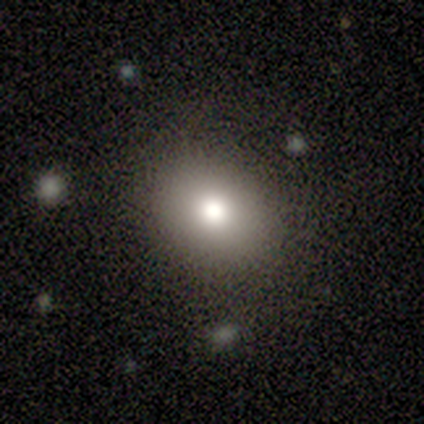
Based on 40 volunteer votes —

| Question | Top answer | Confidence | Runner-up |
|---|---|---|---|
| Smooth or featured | smooth | 57% | star or artifact (22%) |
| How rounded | round | 52% | in between (48%) |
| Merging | none | 90% | minor disturbance (3%) |